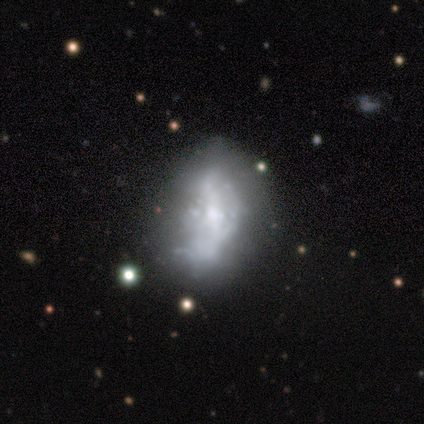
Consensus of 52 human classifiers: Smooth or featured: featured or disk — 69% (smooth — 15%)
Edge-on disk: no — 94% (yes — 6%)
Bar: no — 62% (weak — 29%)
Spiral arms: no — 74% (yes — 26%)
Bulge size: small — 41% (moderate — 32%)
Merging: none — 36% (major disturbance — 34%)